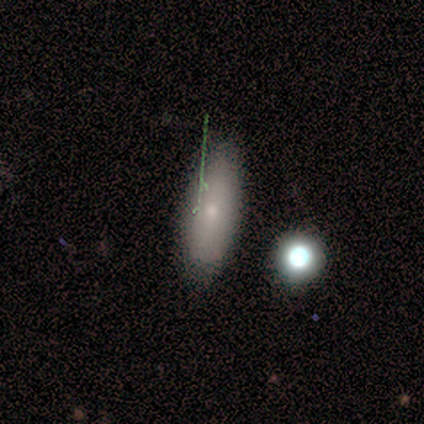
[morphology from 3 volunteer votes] Smooth or featured?
  - smooth: 100% *
  - featured or disk: 0%
  - star or artifact: 0%
How rounded?
  - in between: 67% *
  - round: 33%
  - cigar-shaped: 0%
Merging?
  - none: 33% * (tied)
  - minor disturbance: 33% * (tied)
  - major disturbance: 33% * (tied)
  - merger: 0%